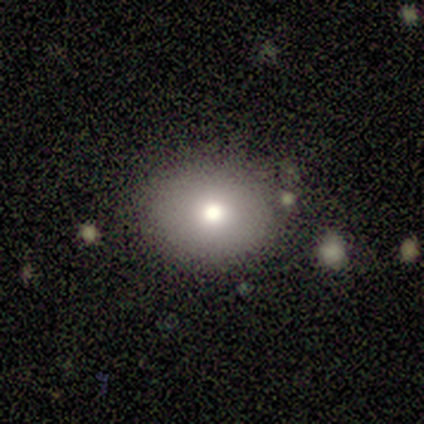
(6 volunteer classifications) This appears to be a smooth galaxy with no disk features (67%) that is round (75%). Merging: none (83%).